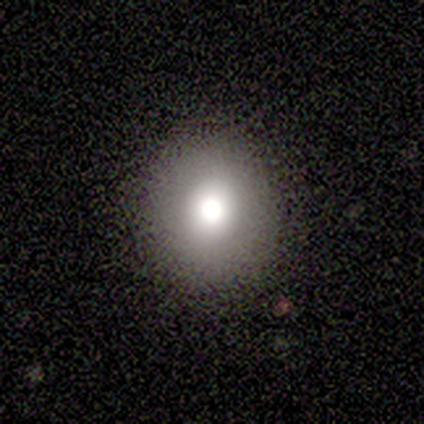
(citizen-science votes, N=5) A smooth galaxy with no disk features (80%) that is round (100%).

Vote fractions:
- Smooth or featured? smooth: 80% / featured or disk: 20% / star or artifact: 0%
- How rounded? round: 100% / in between: 0% / cigar-shaped: 0%
- Merging? none: 80% / merger: 20% / minor disturbance: 0% / major disturbance: 0%